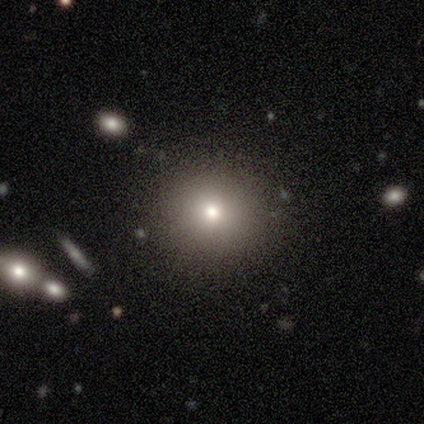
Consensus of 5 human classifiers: Volunteers were most divided on "smooth or featured": smooth: 60%, featured or disk: 20%, star or artifact: 20%. More confident: how rounded — round (100%); merging — none (100%).